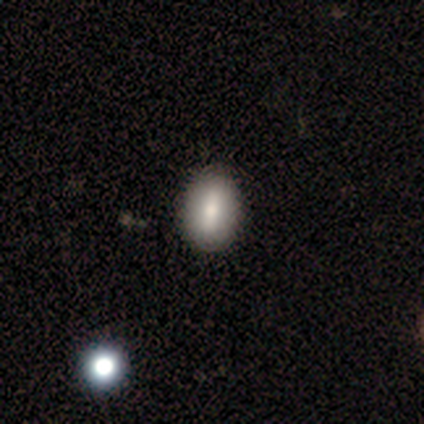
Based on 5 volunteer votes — A smooth galaxy with no disk features (80%) that is in between round and cigar-shaped (75%).

Vote fractions:
- Smooth or featured? smooth: 80% / featured or disk: 20% / star or artifact: 0%
- How rounded? in between: 75% / round: 25% / cigar-shaped: 0%
- Merging? none: 80% / minor disturbance: 20% / major disturbance: 0% / merger: 0%